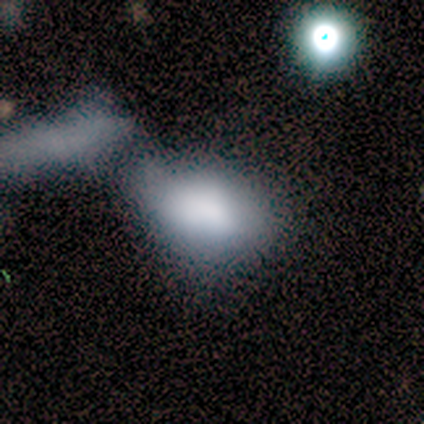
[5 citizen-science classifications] Volunteers were most divided on "merging" (2-way tie): minor disturbance: 40%, merger: 40%, major disturbance: 20%, none: 0%. More confident: smooth or featured — smooth (100%); how rounded — in between (100%).